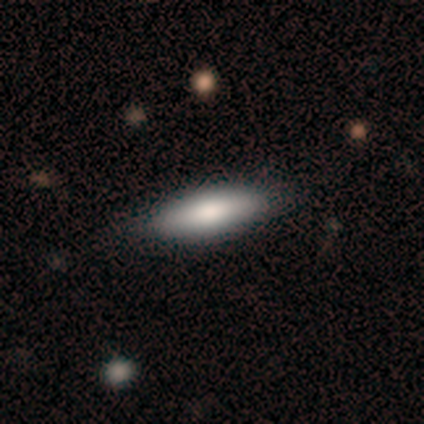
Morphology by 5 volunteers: Smooth or featured? smooth (100%)
How rounded? in between (80%)
Merging? none (100%)